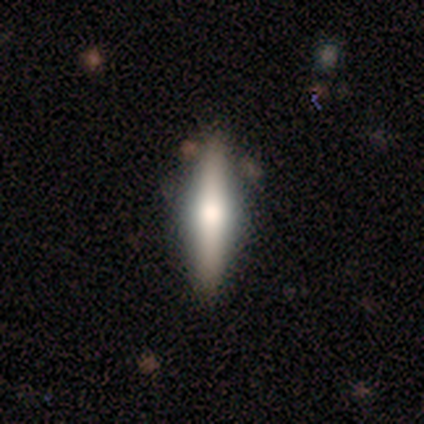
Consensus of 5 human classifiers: A featured or disk galaxy (100%) viewed edge-on (80%) with a rounded central bulge (100%).

Vote fractions:
- Smooth or featured? featured or disk: 100% / smooth: 0% / star or artifact: 0%
- Edge-on disk? yes: 80% / no: 20%
- Edge-on bulge? rounded: 100% / boxy: 0% / none: 0%
- Merging? none: 80% / minor disturbance: 20% / major disturbance: 0% / merger: 0%